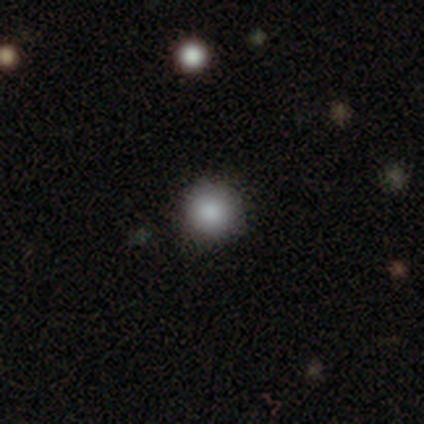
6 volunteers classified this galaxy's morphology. smooth_or_featured: smooth (p=0.50) [tied with: star or artifact p=0.50]
how_rounded: round (p=1.00)
merging: none (p=1.00)